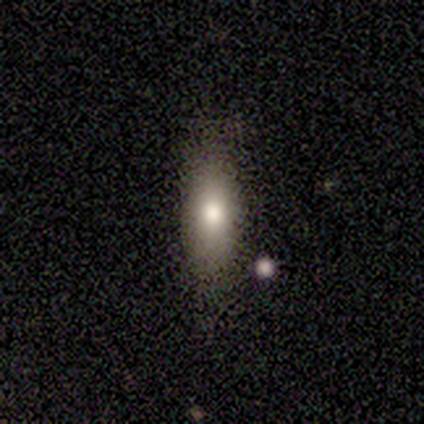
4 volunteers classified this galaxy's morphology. Smooth or featured?
  - smooth: 75% *
  - star or artifact: 25%
  - featured or disk: 0%
How rounded?
  - in between: 100% *
  - round: 0%
  - cigar-shaped: 0%
Merging?
  - none: 67% *
  - minor disturbance: 33%
  - major disturbance: 0%
  - merger: 0%